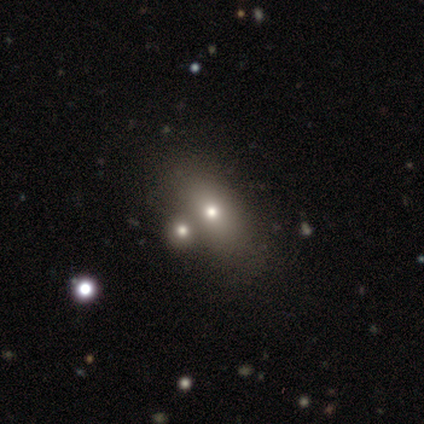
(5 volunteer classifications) smooth-or-featured: smooth: 80% | star or artifact: 20% | featured or disk: 0%
  how-rounded: in between: 75% | round: 25% | cigar-shaped: 0%
  merging: none: 50% | minor disturbance: 25% | merger: 25% | major disturbance: 0%